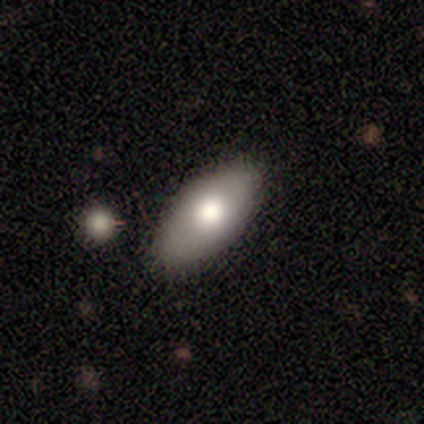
This appears to be a star or artifact, not a galaxy (43%).